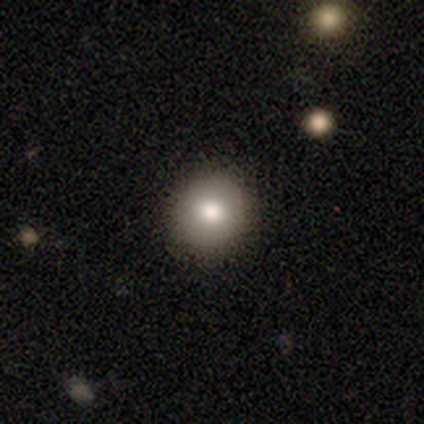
smooth-or-featured: smooth: 82% | star or artifact: 10% | featured or disk: 8%
  how-rounded: round: 94% | in between: 6% | cigar-shaped: 0%
  merging: none: 94% | minor disturbance: 6% | major disturbance: 0% | merger: 0%